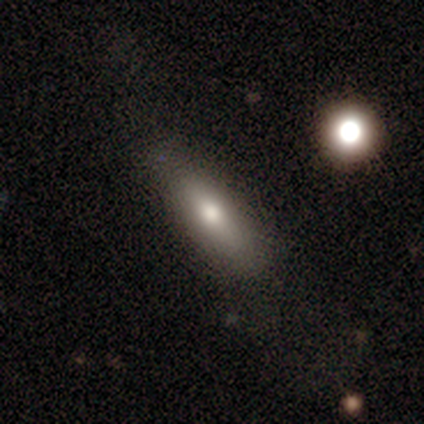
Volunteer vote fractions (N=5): A featured or disk galaxy (60%) viewed edge-on (100%) with a rounded central bulge (67%). Merging: none (80%).